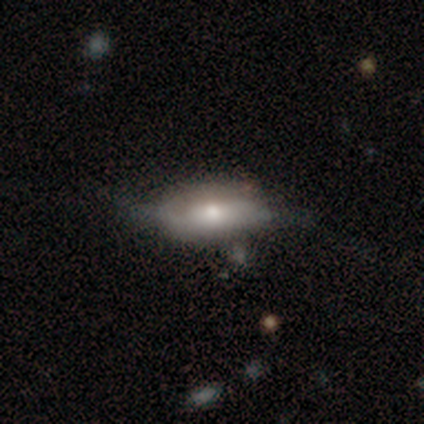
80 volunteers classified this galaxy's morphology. Overall: featured or disk (49%; smooth 42%). Edge-on disk: no (72%). Bar: no (79%). Spiral arms: no (57%; yes 43%). Bulge size: moderate (57%; small 25%). Merging: minor disturbance (22%; major disturbance 14%).